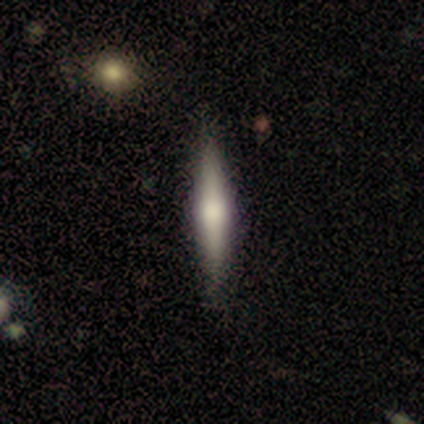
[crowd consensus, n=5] Smooth or featured: smooth — 80% (featured or disk — 20%)
How rounded: cigar-shaped — 100%
Merging: none — 60% (minor disturbance — 40%)